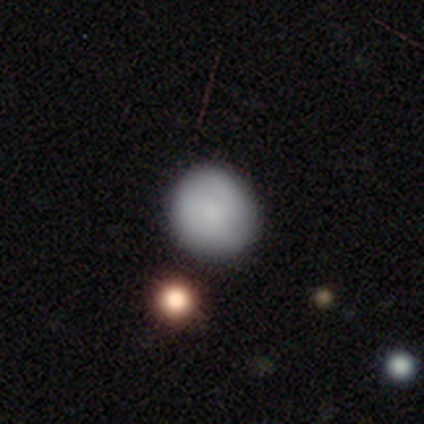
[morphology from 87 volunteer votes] Smooth or featured? smooth (75%)
How rounded? round (92%)
Merging? none (78%)